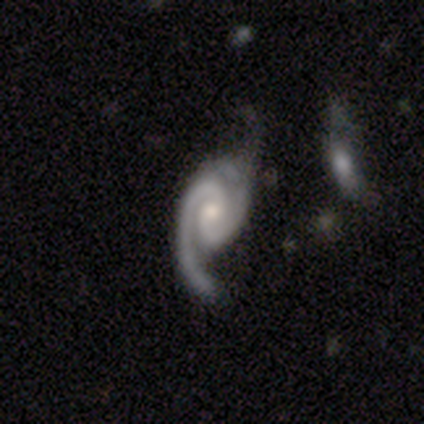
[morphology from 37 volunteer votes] Volunteers were most divided on "bulge size": small: 45%, moderate: 39%, large: 12%, none: 3%, dominant: 0%. Remaining: edge-on disk — no (97%); spiral arms — yes (97%); smooth or featured — featured or disk (92%); spiral arm count — 2 (69%); bar — no (67%); merging — minor disturbance (50%); spiral winding — medium (41%).